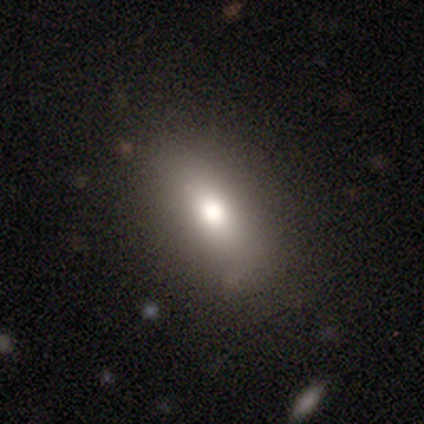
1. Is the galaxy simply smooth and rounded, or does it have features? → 85% smooth, 15% featured or disk, 0% star or artifact.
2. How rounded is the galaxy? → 73% in between, 27% cigar-shaped, 0% round.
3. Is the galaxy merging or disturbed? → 77% none, 15% minor disturbance, 8% major disturbance, 0% merger.